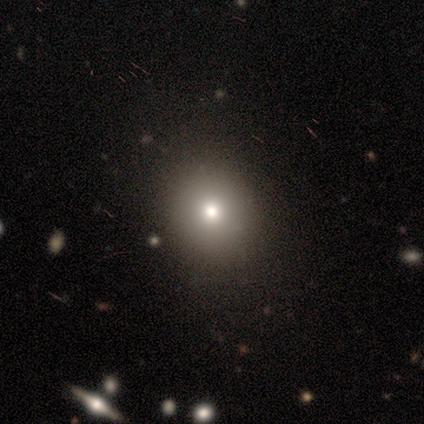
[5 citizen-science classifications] Smooth or featured?
  - smooth: 100% *
  - featured or disk: 0%
  - star or artifact: 0%
How rounded?
  - round: 60% *
  - in between: 40%
  - cigar-shaped: 0%
Merging?
  - none: 60% *
  - minor disturbance: 20%
  - major disturbance: 20%
  - merger: 0%